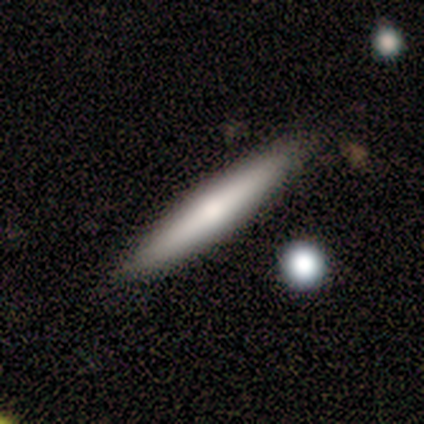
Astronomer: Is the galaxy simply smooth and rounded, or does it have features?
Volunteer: smooth — 50%, tied with featured or disk at 50%.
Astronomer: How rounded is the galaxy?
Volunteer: cigar-shaped — 100%.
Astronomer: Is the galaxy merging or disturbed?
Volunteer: none — 100%.